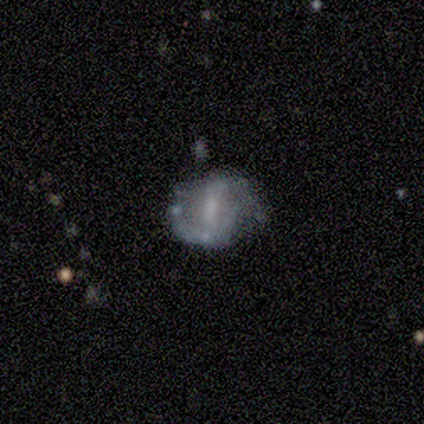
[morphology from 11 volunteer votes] Q: Smooth or featured?
A: featured or disk (82%); runner-up: smooth (9%)
Q: Edge-on disk?
A: no (100%)
Q: Bar?
A: weak (67%); runner-up: no (22%)
Q: Spiral arms?
A: yes (78%); runner-up: no (22%)
Q: Spiral winding?
A: medium (57%); runner-up: loose (29%)
Q: Spiral arm count?
A: 2 (71%); runner-up: can't tell (29%)
Q: Bulge size?
A: none (56%); runner-up: moderate (33%)
Q: Merging?
A: none (60%); runner-up: major disturbance (20%)